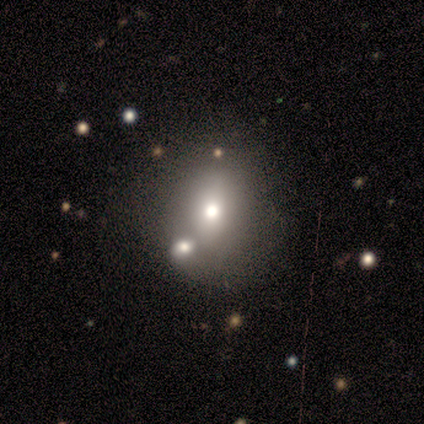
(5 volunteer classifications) This is likely a smooth galaxy (60%). How rounded: likely round (67%). Merging: marginally none (40%, tied with merger).